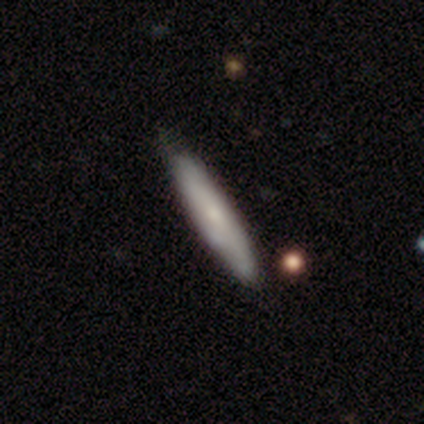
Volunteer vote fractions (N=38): Smooth or featured?
  - smooth: 58% *
  - featured or disk: 42%
  - star or artifact: 0%
How rounded?
  - cigar-shaped: 86% *
  - in between: 14%
  - round: 0%
Merging?
  - none: 53% *
  - minor disturbance: 21%
  - major disturbance: 5%
  - merger: 3%